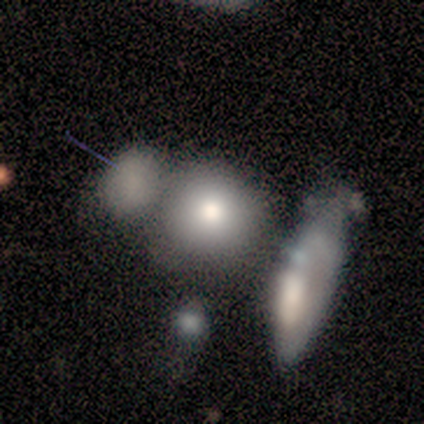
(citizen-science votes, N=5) Q: Smooth or featured?
A: featured or disk (60%); runner-up: smooth (20%)
Q: Edge-on disk?
A: no (67%); runner-up: yes (33%)
Q: Bar?
A: weak (50%); tied with: no (50%)
Q: Spiral arms?
A: no (100%)
Q: Bulge size?
A: large (50%); tied with: moderate (50%)
Q: Merging?
A: merger (50%); runner-up: none (25%)